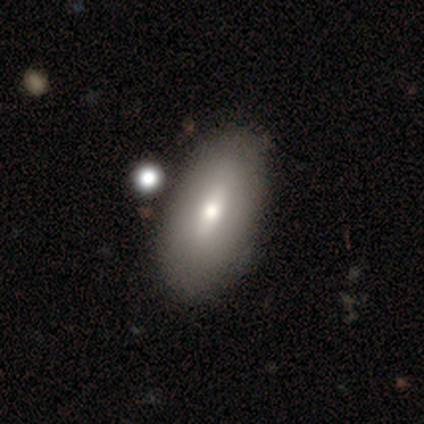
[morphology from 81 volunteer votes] This appears to be a smooth galaxy with no disk features (73%) that is in between round and cigar-shaped (92%). Merging: none (68%).